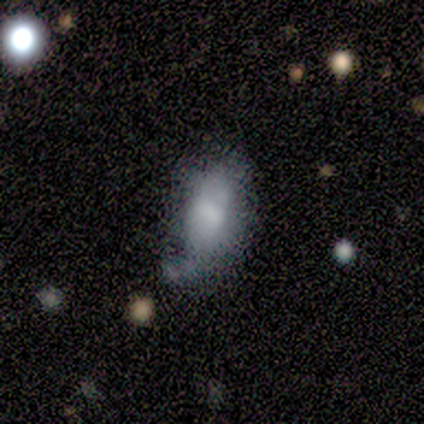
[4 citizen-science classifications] smooth-or-featured: smooth: 100% | featured or disk: 0% | star or artifact: 0%
  how-rounded: in between: 100% | round: 0% | cigar-shaped: 0%
  merging: minor disturbance: 50% | none: 25% | merger: 25% | major disturbance: 0%